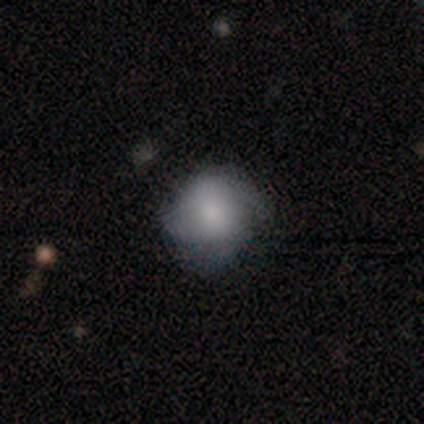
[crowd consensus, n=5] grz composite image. It shows a smooth galaxy with no disk features (60%) that is round (100%). Merging: none (75%).